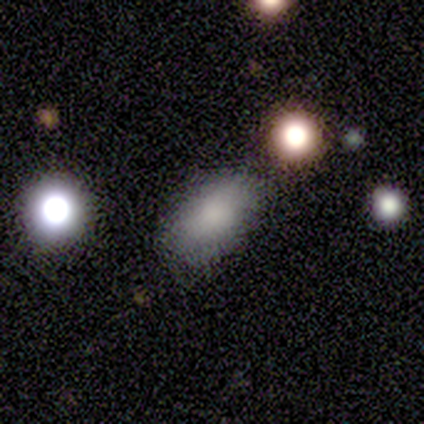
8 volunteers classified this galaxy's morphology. This is clearly a smooth galaxy (100%). How rounded: clearly in between (88%). Merging: clearly none (100%).